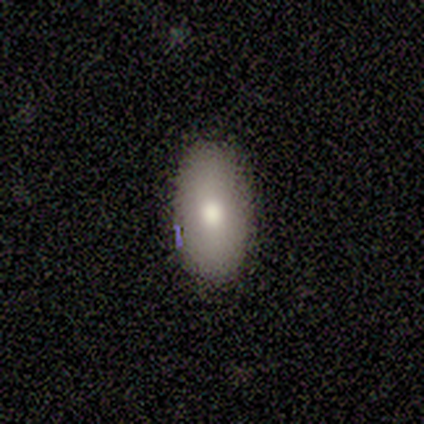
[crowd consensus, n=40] Q: Smooth or featured?
A: smooth (72%); runner-up: featured or disk (25%)
Q: How rounded?
A: in between (97%); runner-up: cigar-shaped (3%)
Q: Merging?
A: none (87%); runner-up: minor disturbance (10%)